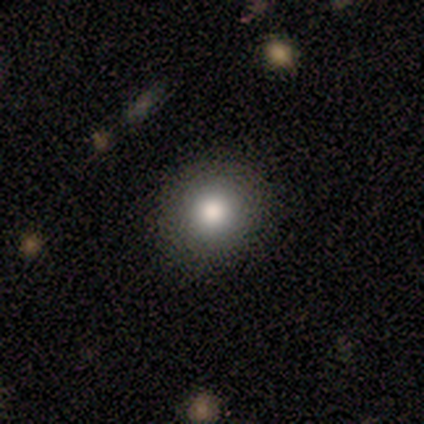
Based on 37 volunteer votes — This is likely a smooth galaxy (70%). How rounded: clearly round (88%). Merging: clearly none (85%).